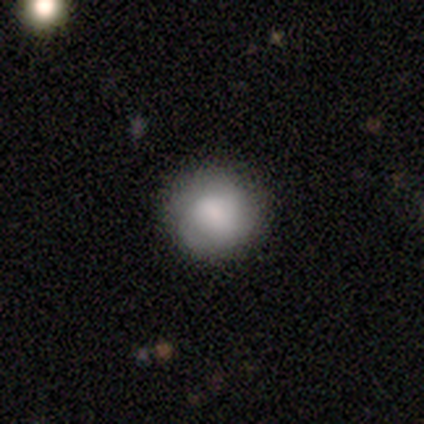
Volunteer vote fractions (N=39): Morphology: type=smooth (79%); roundness=round (97%); merging=none (94%).